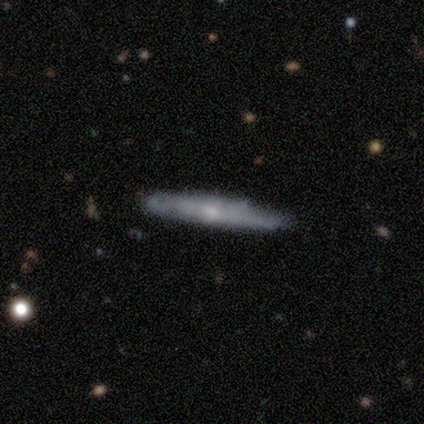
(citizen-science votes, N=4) Smooth or featured? 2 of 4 (50%, tied with featured or disk) said smooth. How rounded? 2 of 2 (100%) said cigar-shaped. Merging? 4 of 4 (100%) said none.